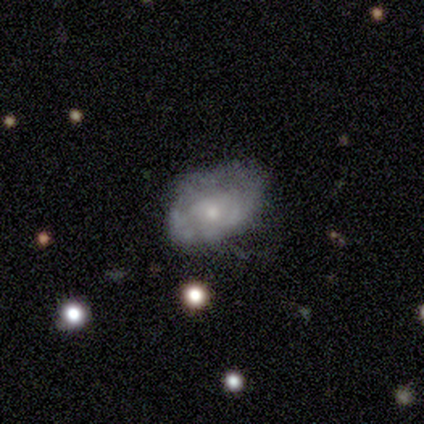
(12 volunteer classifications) A featured or disk galaxy (75%) with no bar (88%), tight (50%, tied with medium) spiral arms (75%) and a small central bulge (75%).

Vote fractions:
- Smooth or featured? featured or disk: 75% / smooth: 17% / star or artifact: 8%
- Edge-on disk? no: 89% / yes: 11%
- Bar? no: 88% / weak: 12% / strong: 0%
- Spiral arms? yes: 75% / no: 25%
- Spiral winding? tight: 50% (tied) / medium: 50% (tied) / loose: 0%
- Spiral arm count? can't tell: 83% / 2: 17% / 1: 0% / 3: 0% / 4: 0% / more than 4: 0%
- Bulge size? small: 75% / moderate: 25% / dominant: 0% / large: 0% / none: 0%
- Merging? none: 55% / minor disturbance: 36% / major disturbance: 9% / merger: 0%